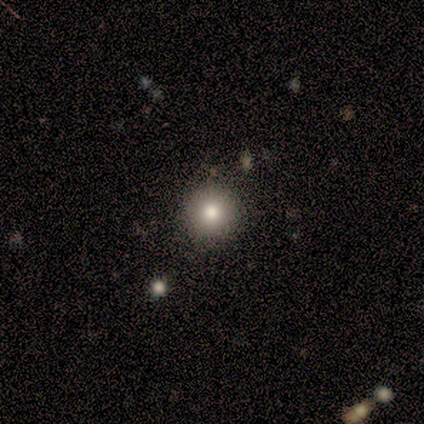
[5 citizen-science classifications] Overall: smooth (100%). How rounded: round (100%). Merging: none (100%).